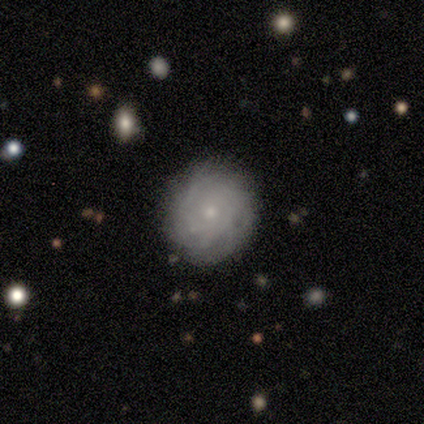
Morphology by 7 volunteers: smooth_or_featured: featured or disk (p=0.71) [alt: smooth p=0.29]
disk_edge_on: no (p=1.00)
bar: no (p=1.00)
has_spiral_arms: yes (p=1.00)
spiral_winding: tight (p=0.80) [alt: loose p=0.20]
spiral_arm_count: can't tell (p=0.80) [alt: more than 4 p=0.20]
bulge_size: small (p=0.80) [alt: moderate p=0.20]
merging: none (p=0.71) [alt: minor disturbance p=0.29]